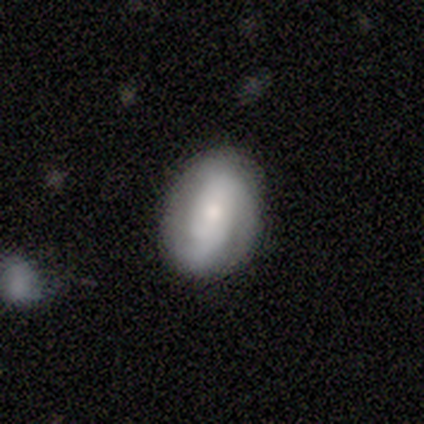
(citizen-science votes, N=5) Smooth or featured? 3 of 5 (60%) said smooth. How rounded? 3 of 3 (100%) said in between. Merging? 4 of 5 (80%) said none.